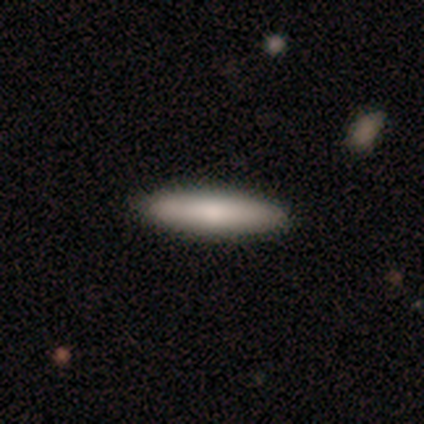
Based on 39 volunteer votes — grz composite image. It shows a smooth galaxy with no disk features (82%) that is cigar-shaped (84%). Merging: none (74%).